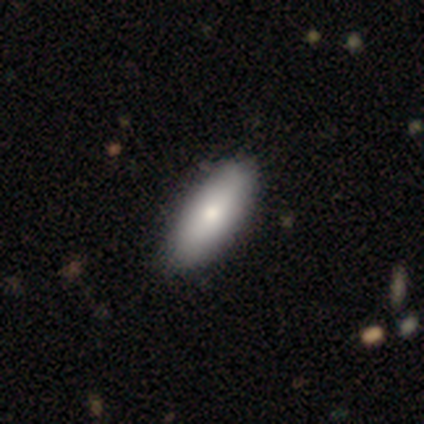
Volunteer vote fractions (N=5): Smooth or featured: smooth — 100%
How rounded: in between — 60% (cigar-shaped — 40%)
Merging: none — 80% (major disturbance — 20%)